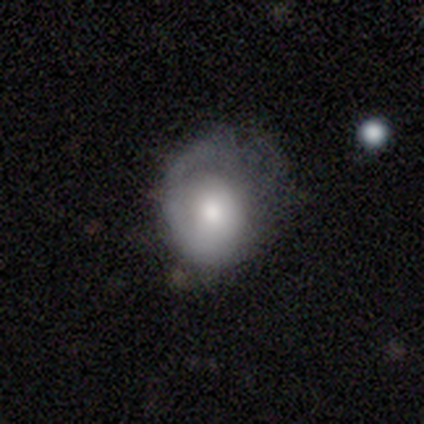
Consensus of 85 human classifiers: Smooth or featured? smooth (59%)
How rounded? round (76%)
Merging? none (36%, tied with minor disturbance)